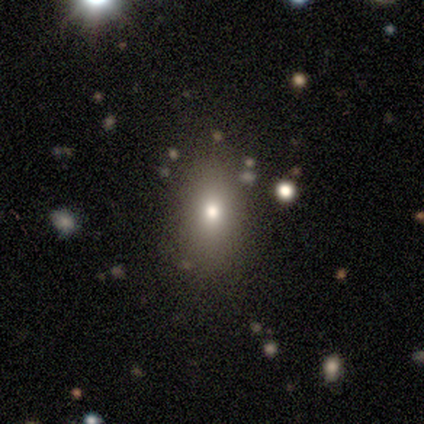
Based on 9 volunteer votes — Morphology: type=smooth (67%); roundness=in between (83%); merging=none (86%).